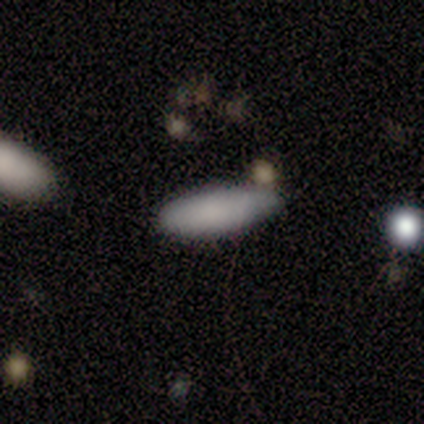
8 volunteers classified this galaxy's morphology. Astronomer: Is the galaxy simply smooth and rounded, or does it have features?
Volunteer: smooth — 88%.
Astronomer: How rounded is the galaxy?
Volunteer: cigar-shaped — 57% (runner-up: in between, 43%).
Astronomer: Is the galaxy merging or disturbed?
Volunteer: none — 71%.